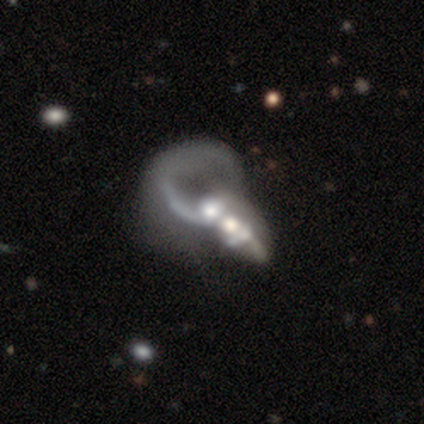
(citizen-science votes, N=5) This appears to be a featured or disk galaxy (60%) with no bar (100%), 2 (100%) loose (100%) spiral arms (50%, tied with no) and a moderate central bulge (50%, tied with none). Merging: merger (60%).